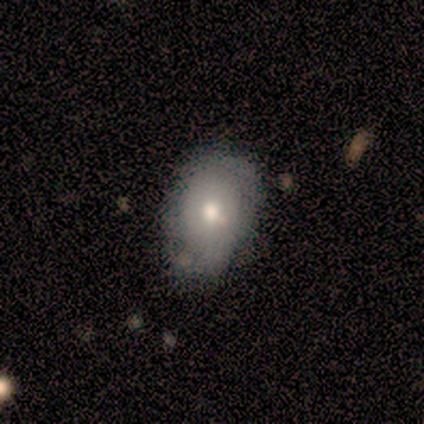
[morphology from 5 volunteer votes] This is likely a featured or disk galaxy (60%). It is clearly not viewed edge-on (100%). Bar: likely weak (67%). Spiral arm pattern: likely no (67%). Central bulge: likely moderate (67%). Merging: likely none (60%).